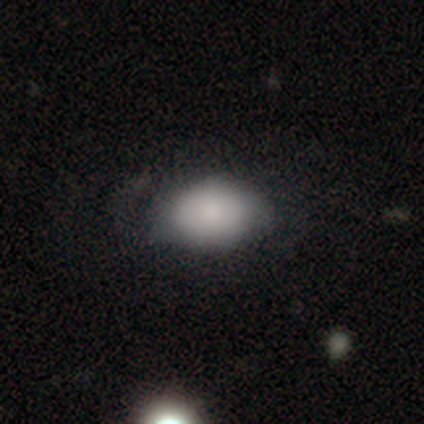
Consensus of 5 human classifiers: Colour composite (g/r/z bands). It shows a smooth galaxy with no disk features (100%) that is in between round and cigar-shaped (100%). Merging: none (40%, tied with minor disturbance).